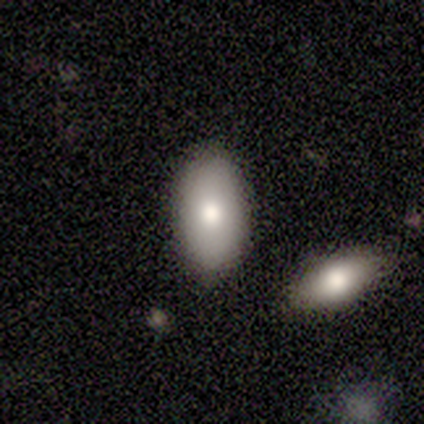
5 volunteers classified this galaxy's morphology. Smooth or featured?
  - smooth: 60% *
  - featured or disk: 20%
  - star or artifact: 20%
How rounded?
  - in between: 67% *
  - cigar-shaped: 33%
  - round: 0%
Merging?
  - merger: 50% *
  - none: 25%
  - minor disturbance: 25%
  - major disturbance: 0%